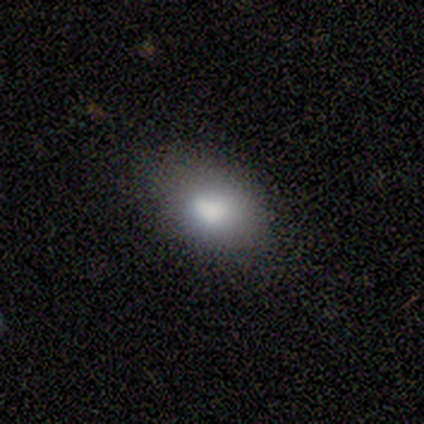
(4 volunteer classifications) Volunteers were most divided on "merging" (2-way tie): none: 50%, minor disturbance: 50%, major disturbance: 0%, merger: 0%. More confident: smooth or featured — smooth (100%); how rounded — in between (75%).